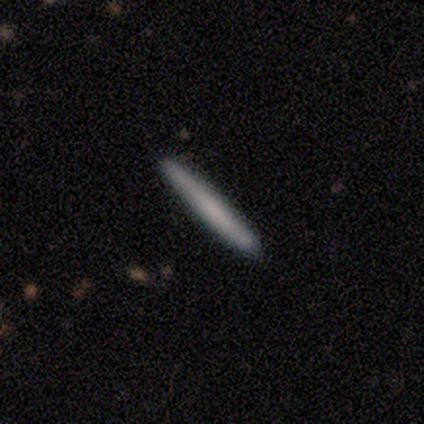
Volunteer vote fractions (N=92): A smooth galaxy with no disk features (77%) that is cigar-shaped (94%).

Vote fractions:
- Smooth or featured? smooth: 77% / featured or disk: 21% / star or artifact: 2%
- How rounded? cigar-shaped: 94% / round: 3% / in between: 3%
- Merging? none: 89% / minor disturbance: 7% / major disturbance: 2% / merger: 2%